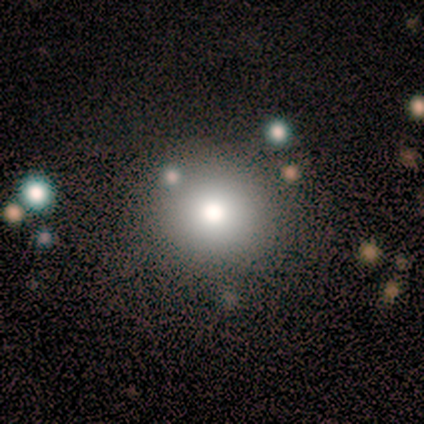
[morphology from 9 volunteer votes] A smooth galaxy with no disk features (67%) that is round (100%). Merging: none (38%).